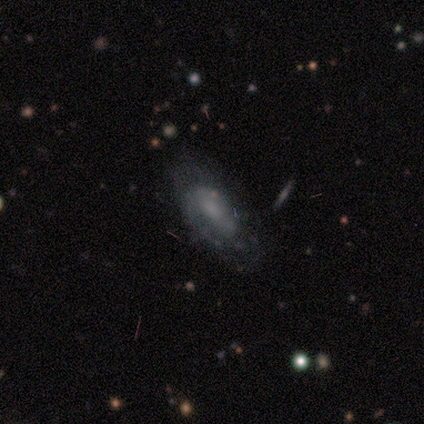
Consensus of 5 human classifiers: smooth-or-featured: featured or disk: 60% | smooth: 40% | star or artifact: 0%
  disk-edge-on: no: 100% | yes: 0%
    bar: no: 100% | strong: 0% | weak: 0%
    has-spiral-arms: no: 67% | yes: 33%
    bulge-size: none: 100% | dominant: 0% | large: 0% | moderate: 0% | small: 0%
  merging: none: 60% | minor disturbance: 20% | merger: 20% | major disturbance: 0%